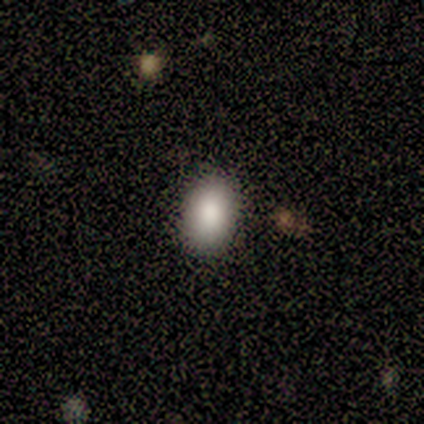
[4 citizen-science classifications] A smooth galaxy with no disk features (75%) that is in between round and cigar-shaped (100%). Merging: none (50%, tied with minor disturbance).